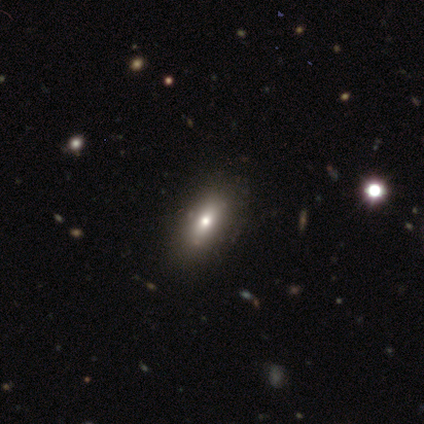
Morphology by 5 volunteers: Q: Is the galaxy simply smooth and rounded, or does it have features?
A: smooth — 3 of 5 (60%).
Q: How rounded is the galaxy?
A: in between — 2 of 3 (67%).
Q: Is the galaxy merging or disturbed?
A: none — 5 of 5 (100%).